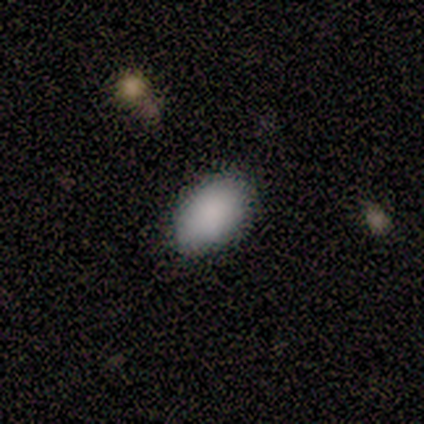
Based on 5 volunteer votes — smooth-or-featured: smooth: 100% | featured or disk: 0% | star or artifact: 0%
  how-rounded: in between: 100% | round: 0% | cigar-shaped: 0%
  merging: none: 100% | minor disturbance: 0% | major disturbance: 0% | merger: 0%